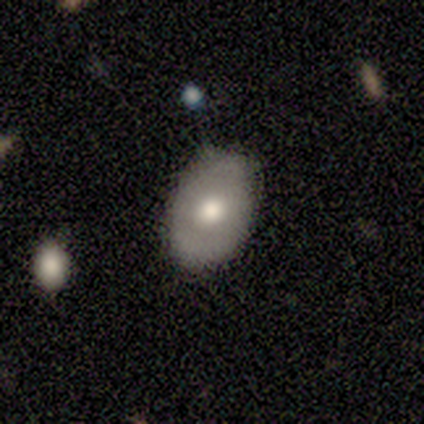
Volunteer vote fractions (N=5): Smooth or featured?
  - smooth: 60% *
  - featured or disk: 40%
  - star or artifact: 0%
How rounded?
  - in between: 100% *
  - round: 0%
  - cigar-shaped: 0%
Merging?
  - none: 100% *
  - minor disturbance: 0%
  - major disturbance: 0%
  - merger: 0%